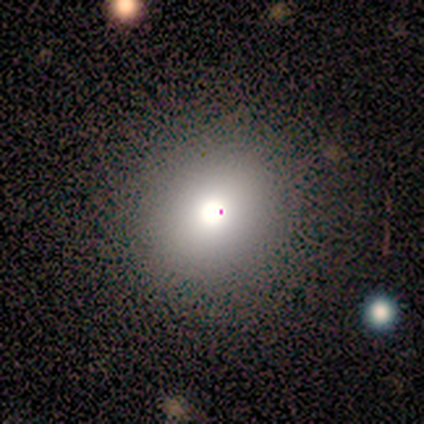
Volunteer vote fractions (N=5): Q: Smooth or featured?
A: smooth (60%); runner-up: star or artifact (40%)
Q: How rounded?
A: round (67%); runner-up: in between (33%)
Q: Merging?
A: none (67%); runner-up: major disturbance (33%)